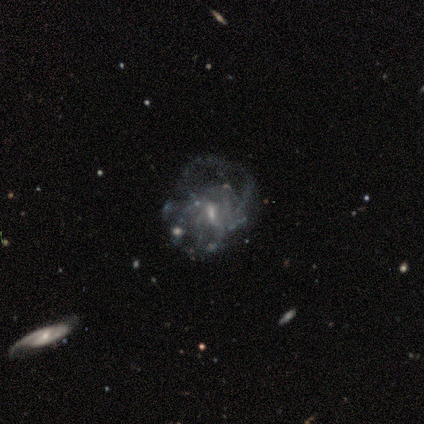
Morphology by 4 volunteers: smooth-or-featured: featured or disk: 50% | smooth: 25% | star or artifact: 25%
  disk-edge-on: no: 100% | yes: 0%
    bar: strong: 50% (tied) | weak: 50% (tied) | no: 0%
    has-spiral-arms: yes: 100% | no: 0%
      spiral-winding: tight: 100% | medium: 0% | loose: 0%
      spiral-arm-count: 2: 50% (tied) | more than 4: 50% (tied) | 1: 0% | 3: 0% | 4: 0% | can't tell: 0%
    bulge-size: moderate: 50% (tied) | small: 50% (tied) | dominant: 0% | large: 0% | none: 0%
  merging: major disturbance: 67% | minor disturbance: 33% | none: 0% | merger: 0%